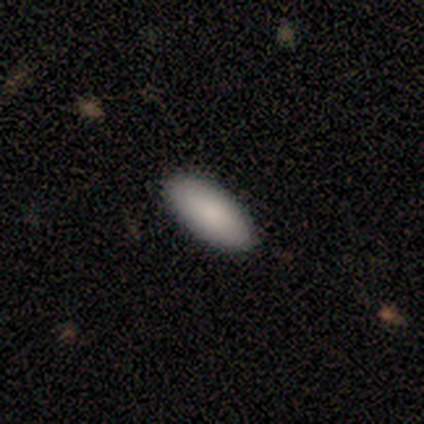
smooth_or_featured: smooth (p=1.00)
how_rounded: in between (p=0.80) [alt: cigar-shaped p=0.20]
merging: none (p=1.00)